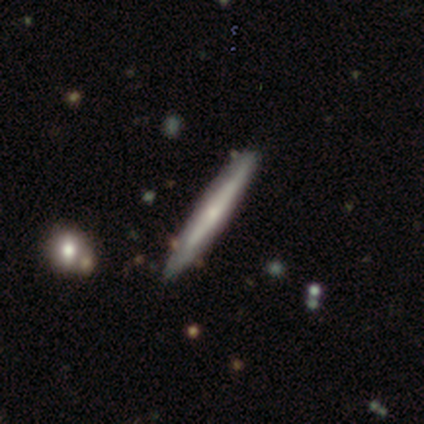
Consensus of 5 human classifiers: Q: Smooth or featured?
A: smooth (60%); runner-up: featured or disk (40%)
Q: How rounded?
A: cigar-shaped (100%)
Q: Merging?
A: none (100%)